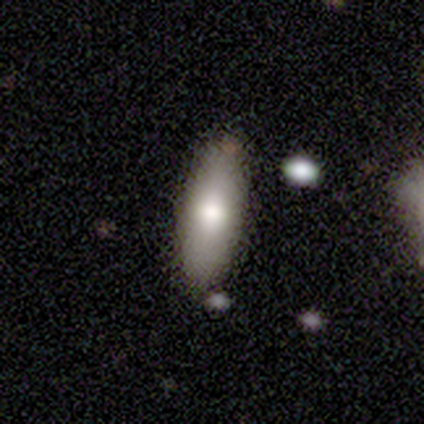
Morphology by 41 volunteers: A smooth galaxy with no disk features (80%) that is in between round and cigar-shaped (79%). Merging: none (73%).